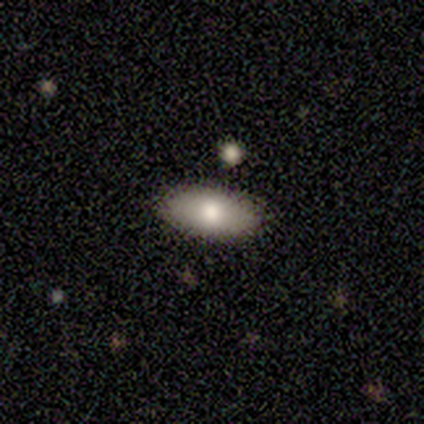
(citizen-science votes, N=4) Smooth or featured?
  - smooth: 75% *
  - star or artifact: 25%
  - featured or disk: 0%
How rounded?
  - in between: 100% *
  - round: 0%
  - cigar-shaped: 0%
Merging?
  - none: 100% *
  - minor disturbance: 0%
  - major disturbance: 0%
  - merger: 0%